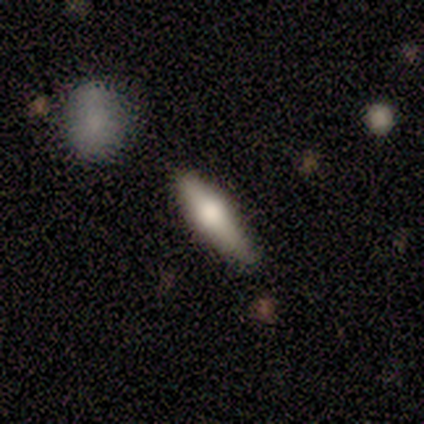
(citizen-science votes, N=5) featured or disk 60%, smooth 40%, star or artifact 0%. Down the decision tree: edge-on disk — yes (100%); edge-on bulge — rounded (100%); merging — none (80%).